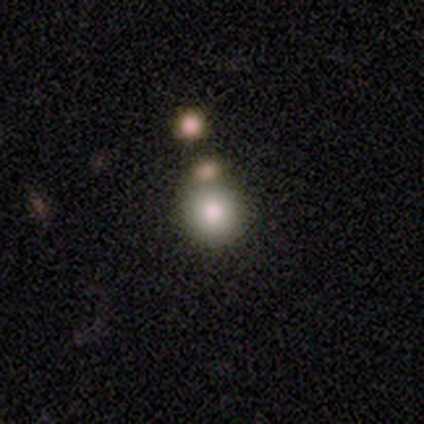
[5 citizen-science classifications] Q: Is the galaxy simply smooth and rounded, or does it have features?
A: smooth — 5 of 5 (100%).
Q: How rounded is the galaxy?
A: round — 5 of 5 (100%).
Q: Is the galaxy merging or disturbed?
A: none — 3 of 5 (60%).